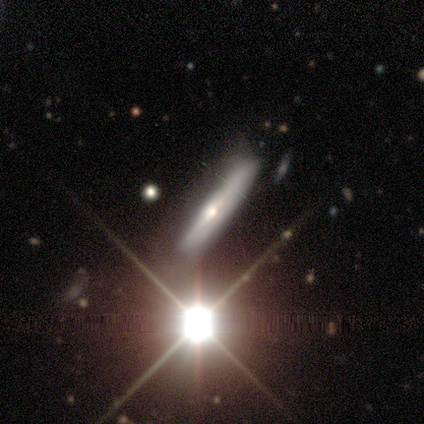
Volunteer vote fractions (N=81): This is likely a featured or disk galaxy (62%). It is clearly viewed edge-on (88%). Edge-on bulge: likely rounded (77%). Merging: likely none (60%).